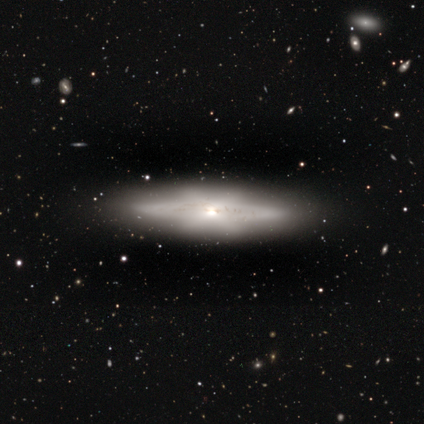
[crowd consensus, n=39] Smooth or featured: featured or disk — 87% (smooth — 10%)
Edge-on disk: yes — 88% (no — 12%)
Edge-on bulge: rounded — 70% (boxy — 20%)
Merging: none — 97% (minor disturbance — 3%)